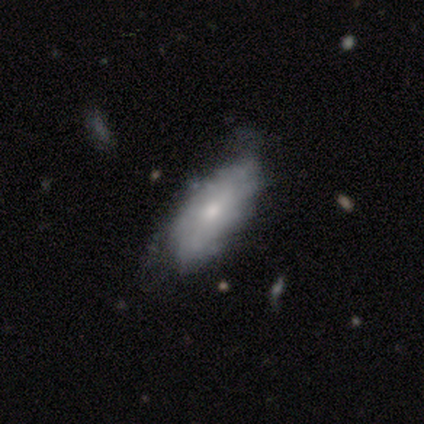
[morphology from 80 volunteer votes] Q: Smooth or featured?
A: featured or disk (51%); runner-up: smooth (46%)
Q: Edge-on disk?
A: no (88%); runner-up: yes (12%)
Q: Bar?
A: no (83%); runner-up: weak (17%)
Q: Spiral arms?
A: yes (53%); runner-up: no (47%)
Q: Spiral winding?
A: tight (74%); runner-up: medium (26%)
Q: Spiral arm count?
A: can't tell (79%); runner-up: 4 (16%)
Q: Bulge size?
A: small (47%); runner-up: moderate (44%)
Q: Merging?
A: none (22%); tied with: minor disturbance (22%)